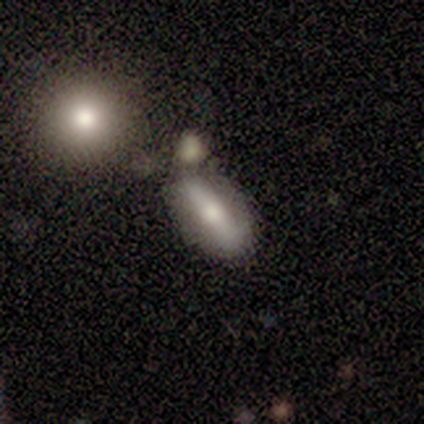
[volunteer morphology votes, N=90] A smooth galaxy with no disk features (49%) that is in between round and cigar-shaped (73%).

Vote fractions:
- Smooth or featured? smooth: 49% / featured or disk: 44% / star or artifact: 7%
- How rounded? in between: 73% / cigar-shaped: 27% / round: 0%
- Merging? none: 56% / merger: 21% / minor disturbance: 17% / major disturbance: 6%